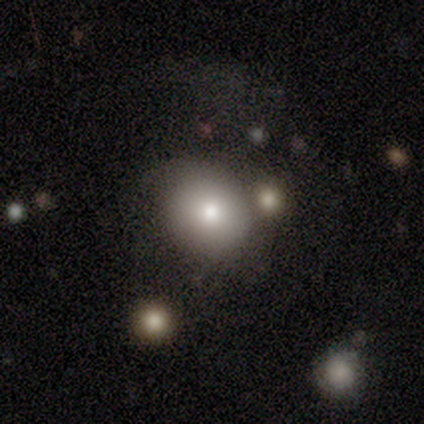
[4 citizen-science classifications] Q: Smooth or featured?
A: smooth (50%); tied with: featured or disk (50%)
Q: How rounded?
A: round (50%); tied with: in between (50%)
Q: Merging?
A: none (75%); runner-up: minor disturbance (25%)